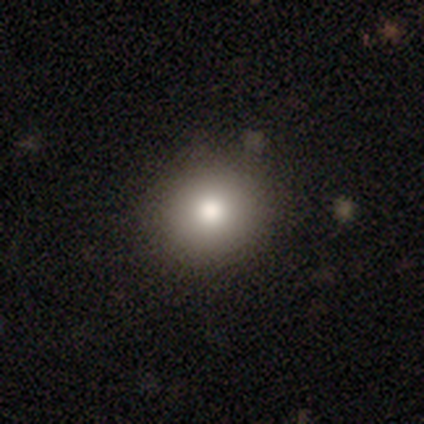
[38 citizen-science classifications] Volunteers were most divided on "smooth or featured": smooth: 82%, featured or disk: 13%, star or artifact: 5%. More confident: merging — none (92%); how rounded — round (90%).